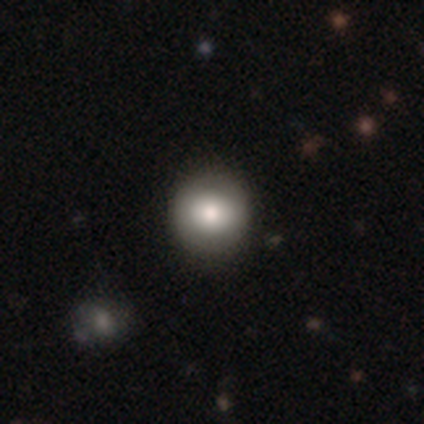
smooth 78%, featured or disk 13%, star or artifact 9%. Down the decision tree: how rounded — round (91%); merging — none (82%).